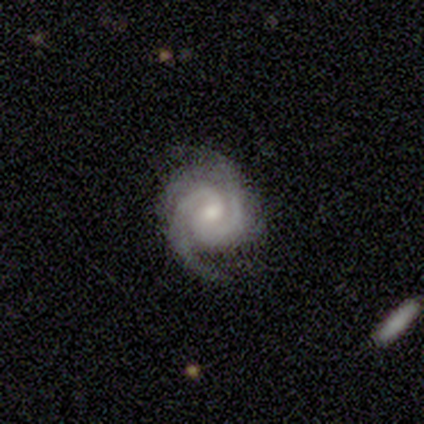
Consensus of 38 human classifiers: A featured or disk galaxy (100%) with no bar (55%), 2 (76%) tight (76%) spiral arms (97%) and a moderate central bulge (50%). Merging: none (74%).